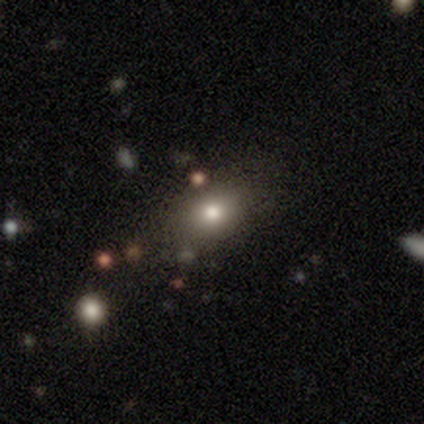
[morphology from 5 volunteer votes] Smooth or featured?
  - smooth: 100% *
  - featured or disk: 0%
  - star or artifact: 0%
How rounded?
  - round: 80% *
  - in between: 20%
  - cigar-shaped: 0%
Merging?
  - none: 60% *
  - minor disturbance: 40%
  - major disturbance: 0%
  - merger: 0%